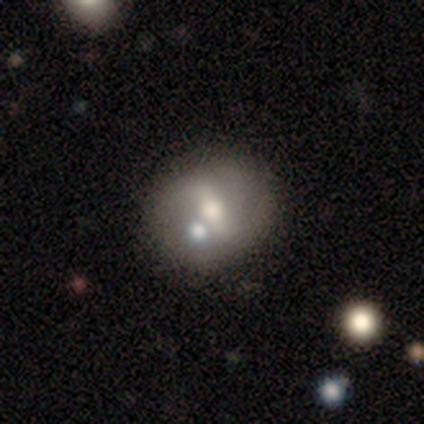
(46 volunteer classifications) Q: Smooth or featured?
A: featured or disk (48%); runner-up: smooth (43%)
Q: Edge-on disk?
A: no (95%); runner-up: yes (5%)
Q: Bar?
A: no (43%); runner-up: strong (38%)
Q: Spiral arms?
A: no (67%); runner-up: yes (33%)
Q: Bulge size?
A: moderate (52%); runner-up: small (29%)
Q: Merging?
A: none (55%); runner-up: merger (21%)